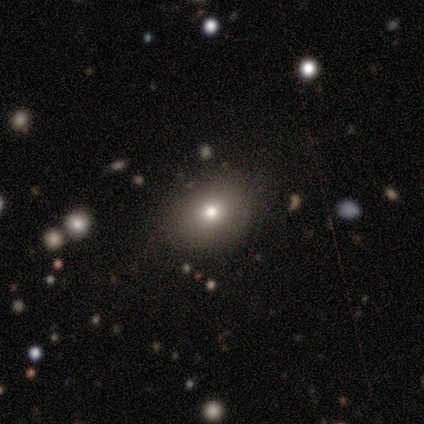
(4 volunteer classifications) A smooth galaxy with no disk features (75%) that is in between round and cigar-shaped (67%).

Vote fractions:
- Smooth or featured? smooth: 75% / star or artifact: 25% / featured or disk: 0%
- How rounded? in between: 67% / round: 33% / cigar-shaped: 0%
- Merging? none: 100% / minor disturbance: 0% / major disturbance: 0% / merger: 0%